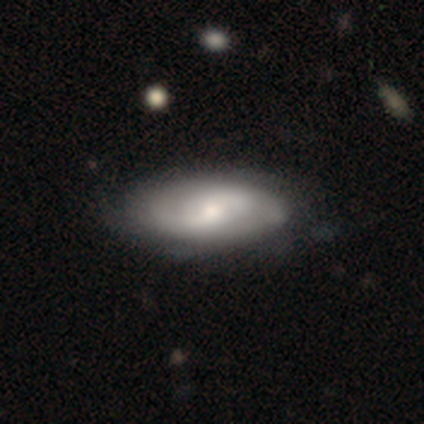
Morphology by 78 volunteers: A featured or disk galaxy (58%) with no bar (49%), 2 (64%) medium (52%) spiral arms (80%) and a moderate central bulge (39%).

Vote fractions:
- Smooth or featured? featured or disk: 58% / smooth: 40% / star or artifact: 3%
- Edge-on disk? no: 91% / yes: 9%
- Bar? no: 49% / weak: 46% / strong: 5%
- Spiral arms? yes: 80% / no: 20%
- Spiral winding? medium: 52% / loose: 30% / tight: 18%
- Spiral arm count? 2: 64% / can't tell: 30% / 1: 3% / more than 4: 3% / 3: 0% / 4: 0%
- Bulge size? moderate: 39% / small: 37% / large: 15% / none: 7% / dominant: 2%
- Merging? none: 34% / minor disturbance: 14% / major disturbance: 4% / merger: 0%